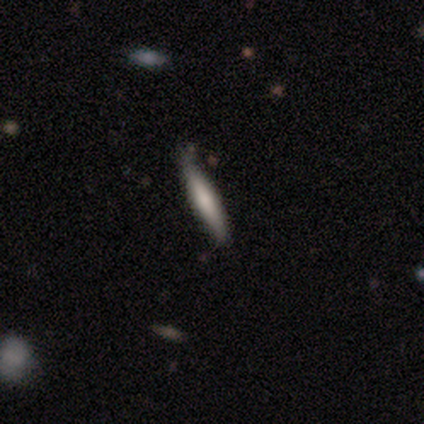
A smooth galaxy with no disk features (80%) that is cigar-shaped (100%). Merging: none (100%).